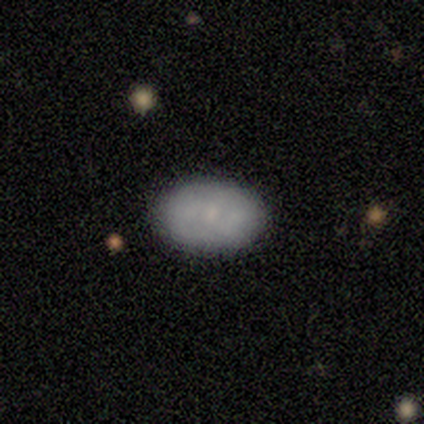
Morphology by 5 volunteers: A smooth galaxy with no disk features (80%) that is in between round and cigar-shaped (100%).

Vote fractions:
- Smooth or featured? smooth: 80% / featured or disk: 20% / star or artifact: 0%
- How rounded? in between: 100% / round: 0% / cigar-shaped: 0%
- Merging? none: 80% / minor disturbance: 20% / major disturbance: 0% / merger: 0%